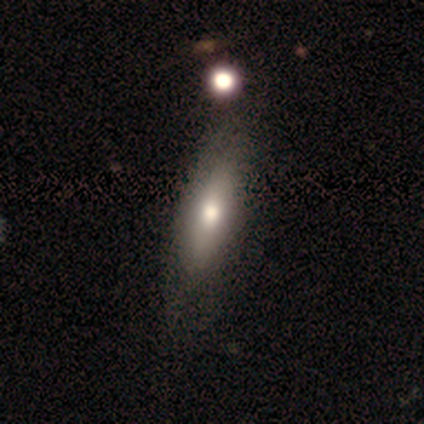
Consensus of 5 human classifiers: Overall: smooth (60%; featured or disk 20%). How rounded: round (33%, tied with in between and cigar-shaped). Merging: minor disturbance (75%).